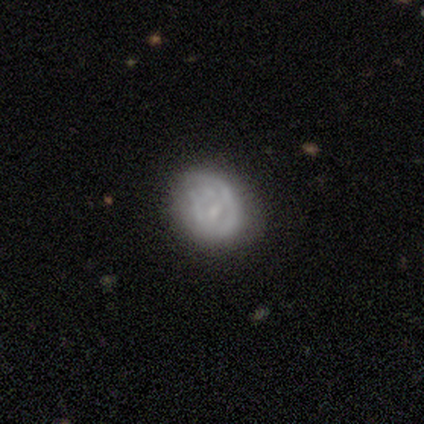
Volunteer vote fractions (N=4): Smooth or featured? featured or disk (50%)
Edge-on disk? no (100%)
Bar? weak (50%, tied with no)
Spiral arms? yes (50%, tied with no)
Spiral winding? loose (100%)
Spiral arm count? 1 (100%)
Bulge size? small (100%)
Merging? none (33%, tied with minor disturbance and major disturbance)